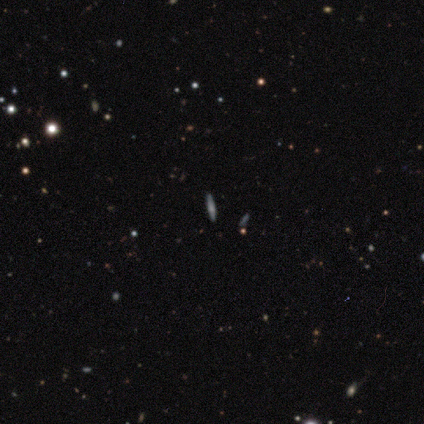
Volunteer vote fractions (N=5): Smooth or featured?
  - featured or disk: 60% *
  - smooth: 40%
  - star or artifact: 0%
Edge-on disk?
  - yes: 67% *
  - no: 33%
Edge-on bulge?
  - none: 50% * (tied)
  - rounded: 50% * (tied)
  - boxy: 0%
Merging?
  - none: 80% *
  - major disturbance: 20%
  - minor disturbance: 0%
  - merger: 0%